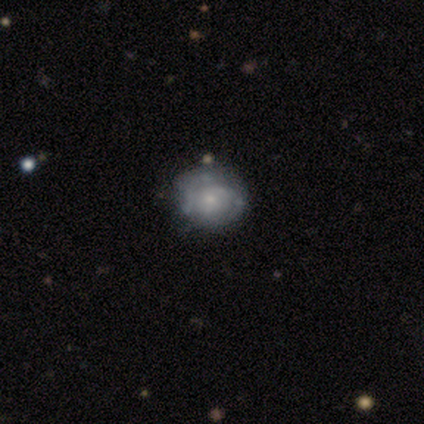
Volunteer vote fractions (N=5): Smooth or featured? 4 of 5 (80%) said featured or disk. Edge-on disk? 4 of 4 (100%) said no. Bar? 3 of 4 (75%) said no. Spiral arms? 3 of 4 (75%) said no. Bulge size? 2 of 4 (50%) said small. Merging? 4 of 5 (80%) said none.